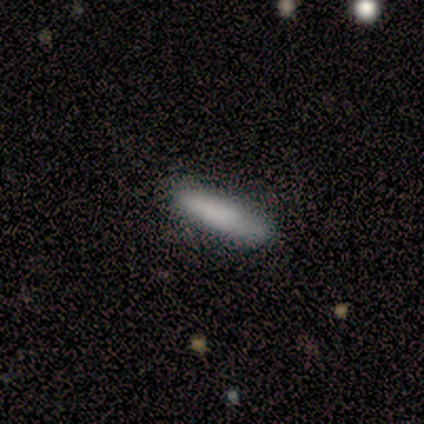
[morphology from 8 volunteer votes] smooth 100%, featured or disk 0%, star or artifact 0%. Down the decision tree: how rounded — cigar-shaped (88%); merging — none (75%).